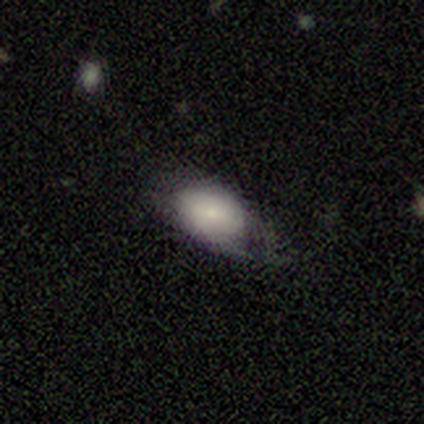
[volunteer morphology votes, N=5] This appears to be a smooth galaxy with no disk features (60%) that is in between round and cigar-shaped (100%). Merging: none (60%).